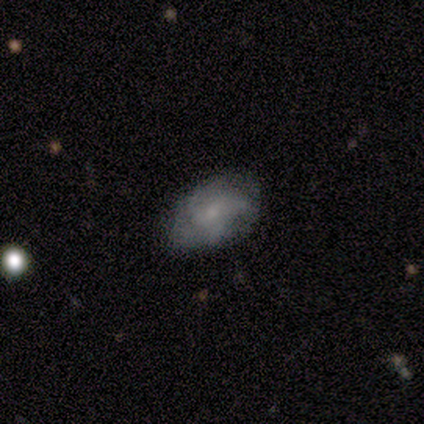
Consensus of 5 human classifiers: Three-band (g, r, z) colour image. It shows a featured or disk galaxy (60%) with no bar (67%), medium (67%) spiral arms (100%) and a moderate central bulge (33%, tied with small and none). Merging: none (60%).